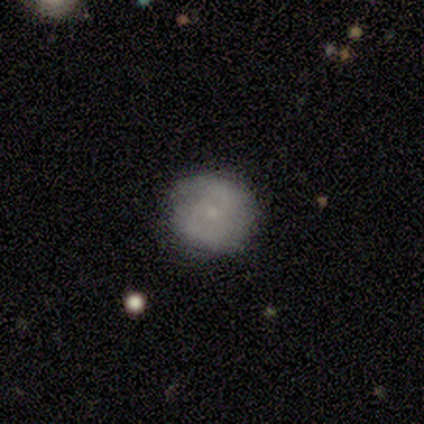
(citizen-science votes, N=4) Volunteers were most divided on "smooth or featured" (2-way tie): smooth: 50%, featured or disk: 50%, star or artifact: 0%. More confident: how rounded — round (100%); merging — none (100%).